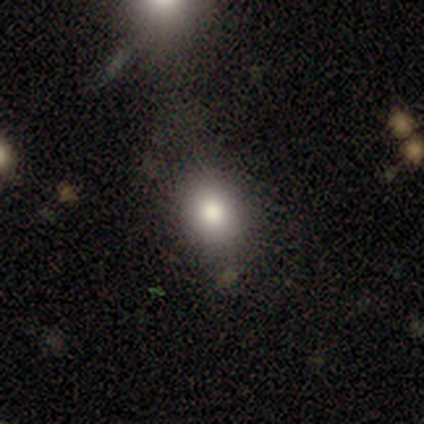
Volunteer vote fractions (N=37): smooth 76%, star or artifact 14%, featured or disk 11%. Down the decision tree: how rounded — in between (54%); merging — none (75%).